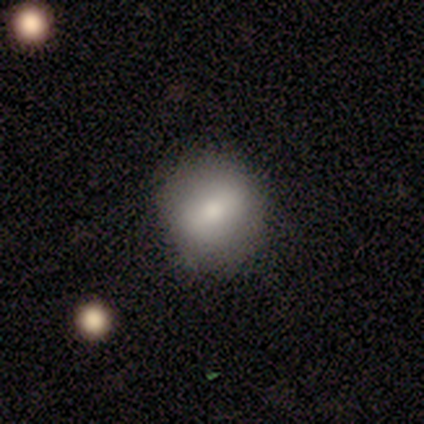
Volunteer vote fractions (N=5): This is likely a smooth galaxy (60%). How rounded: clearly round (100%). Merging: likely none (75%).